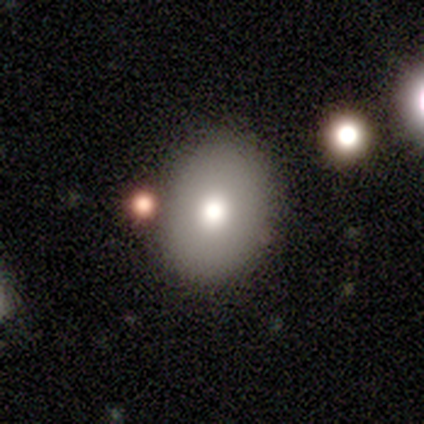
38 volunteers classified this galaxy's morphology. Overall: smooth (68%). How rounded: round (62%; in between 38%). Merging: none (73%).